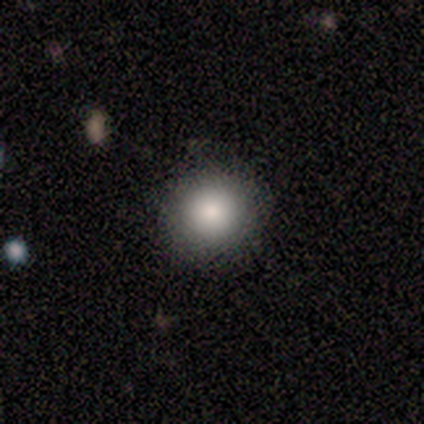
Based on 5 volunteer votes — smooth 80%, star or artifact 20%, featured or disk 0%. Down the decision tree: how rounded — round (75%); merging — none (75%).